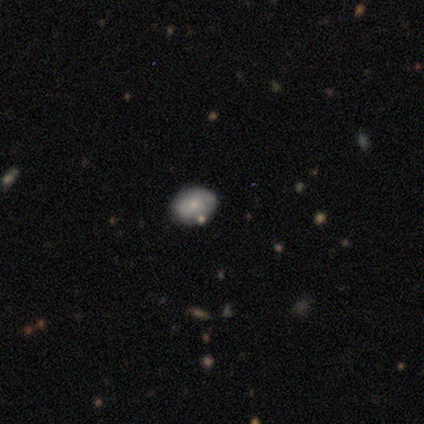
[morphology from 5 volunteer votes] Volunteers were most divided on "merging": none: 75%, merger: 25%, minor disturbance: 0%, major disturbance: 0%. More confident: how rounded — in between (100%); smooth or featured — smooth (80%).